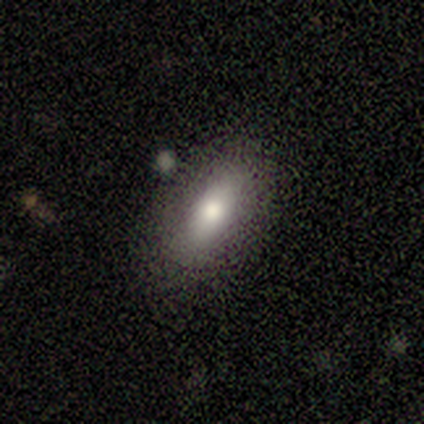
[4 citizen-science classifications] Smooth or featured: smooth — 100%
How rounded: in between — 100%
Merging: none — 50% (minor disturbance — 25%)